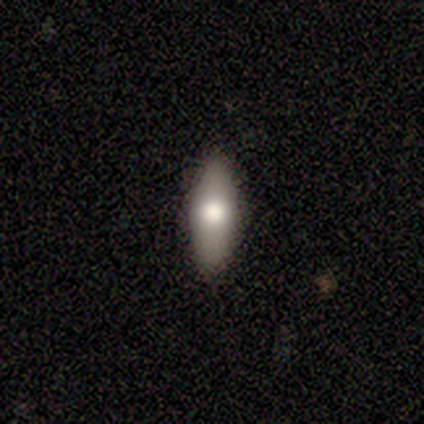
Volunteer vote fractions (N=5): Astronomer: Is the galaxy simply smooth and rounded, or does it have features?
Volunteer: smooth — 80%.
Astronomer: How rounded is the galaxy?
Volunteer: in between — 50%, tied with cigar-shaped at 50%.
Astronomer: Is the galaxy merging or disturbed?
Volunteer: none — 100%.